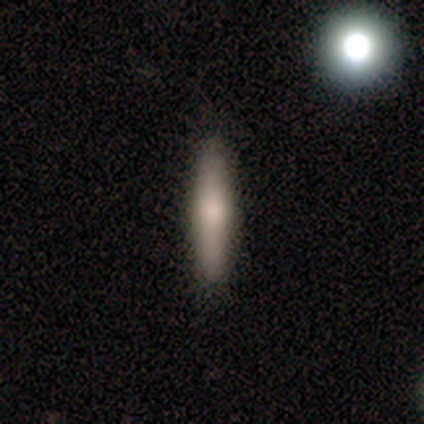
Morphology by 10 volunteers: smooth_or_featured: smooth (p=0.40) [tied with: featured or disk p=0.40]
how_rounded: cigar-shaped (p=0.75) [alt: in between p=0.25]
merging: none (p=1.00)